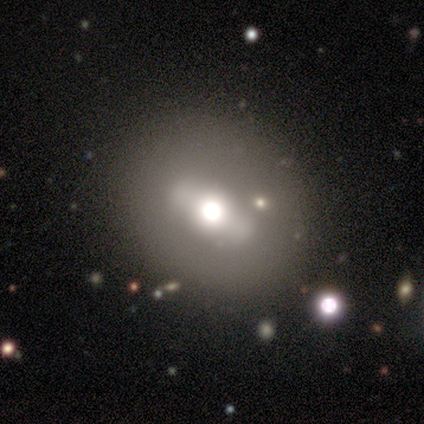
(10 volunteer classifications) This appears to be a featured or disk galaxy (40%) with a strong bar (67%), no spiral arms (100%) and a large central bulge (100%). Merging: none (100%).